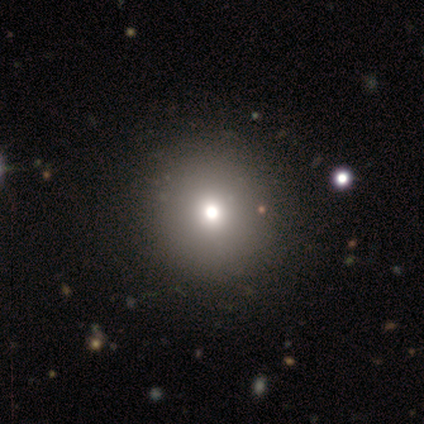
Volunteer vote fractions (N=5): Q: Smooth or featured?
A: smooth (60%); runner-up: star or artifact (40%)
Q: How rounded?
A: round (100%)
Q: Merging?
A: none (100%)